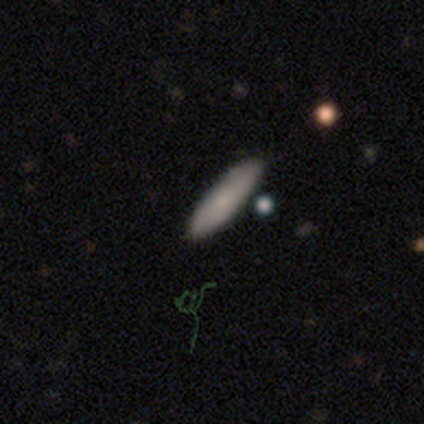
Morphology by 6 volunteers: Smooth or featured? smooth (83%)
How rounded? in between (60%)
Merging? none (83%)